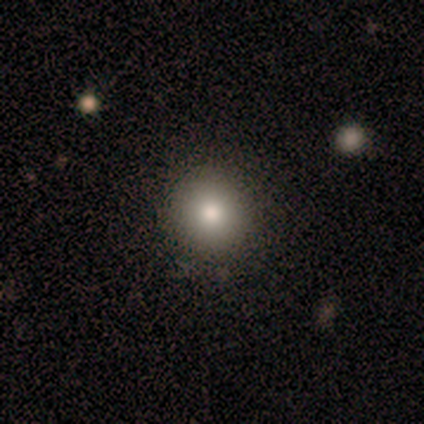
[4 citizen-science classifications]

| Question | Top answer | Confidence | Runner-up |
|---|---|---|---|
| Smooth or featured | smooth | 50% | tied: featured or disk (50%) |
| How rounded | round | 100% | — |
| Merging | none | 75% | minor disturbance (25%) |